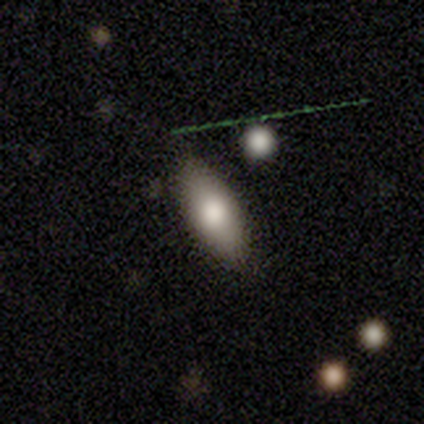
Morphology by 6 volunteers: type=smooth (83%); roundness=in between (100%); merging=none (83%).